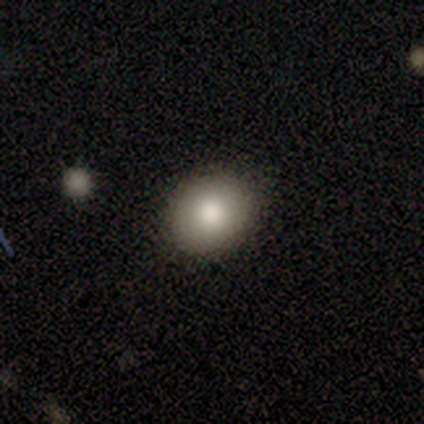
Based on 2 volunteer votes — smooth 100%, featured or disk 0%, star or artifact 0%. Down the decision tree: how rounded — in between (100%); merging — none (100%).